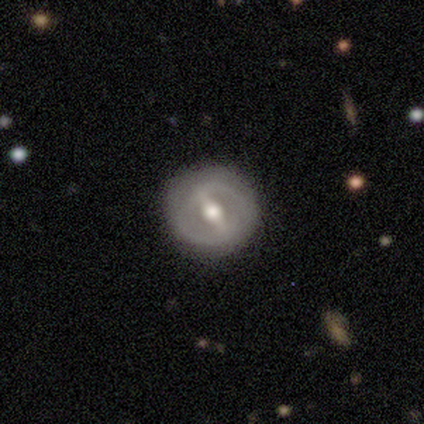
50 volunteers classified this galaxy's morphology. Q: Smooth or featured?
A: featured or disk (80%); runner-up: smooth (16%)
Q: Edge-on disk?
A: no (88%); runner-up: yes (12%)
Q: Bar?
A: strong (66%); runner-up: weak (29%)
Q: Spiral arms?
A: no (57%); runner-up: yes (43%)
Q: Bulge size?
A: moderate (80%); runner-up: large (14%)
Q: Merging?
A: none (88%); runner-up: minor disturbance (8%)